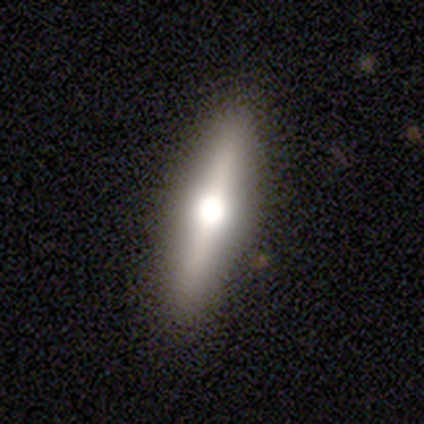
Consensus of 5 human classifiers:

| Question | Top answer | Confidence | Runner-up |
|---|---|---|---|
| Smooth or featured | featured or disk | 80% | star or artifact (20%) |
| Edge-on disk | yes | 75% | no (25%) |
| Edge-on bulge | rounded | 100% | — |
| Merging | none | 100% | — |